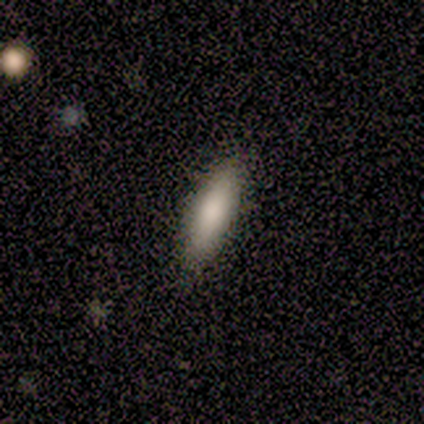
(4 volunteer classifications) Smooth or featured?
  - smooth: 50% * (tied)
  - featured or disk: 50% * (tied)
  - star or artifact: 0%
How rounded?
  - in between: 100% *
  - round: 0%
  - cigar-shaped: 0%
Merging?
  - none: 100% *
  - minor disturbance: 0%
  - major disturbance: 0%
  - merger: 0%